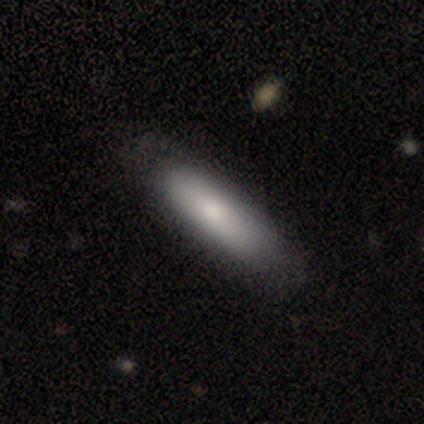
Smooth or featured? 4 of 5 (80%) said smooth. How rounded? 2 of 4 (50%, tied with cigar-shaped) said in between. Merging? 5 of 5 (100%) said none.